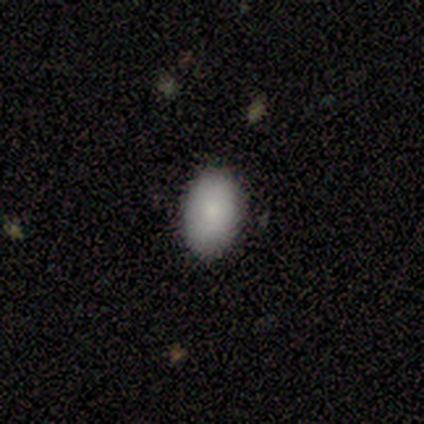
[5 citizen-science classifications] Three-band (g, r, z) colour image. It shows a smooth galaxy with no disk features (60%) that is in between round and cigar-shaped (100%). Merging: none (100%).